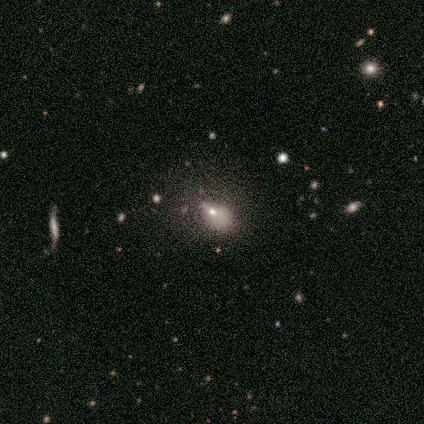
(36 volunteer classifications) This is likely a smooth galaxy (64%). How rounded: clearly in between (83%). Merging: marginally none (36%).